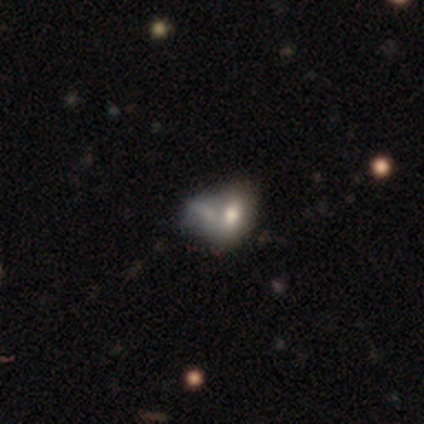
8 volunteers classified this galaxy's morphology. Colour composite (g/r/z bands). It shows a smooth galaxy with no disk features (75%) that is in between round and cigar-shaped (100%). Merging: merger (67%).